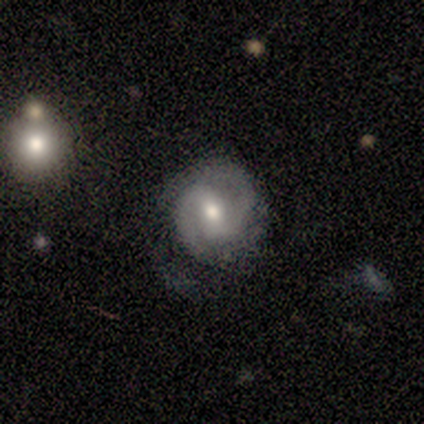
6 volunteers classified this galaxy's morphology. This is clearly a featured or disk galaxy (100%). It is clearly not viewed edge-on (100%). Bar: possibly no (50%). Spiral arm pattern: clearly yes (100%). Spiral arm count: clearly 2 (100%). Spiral winding: clearly medium (83%). Central bulge: clearly moderate (100%). Merging: likely none (67%).